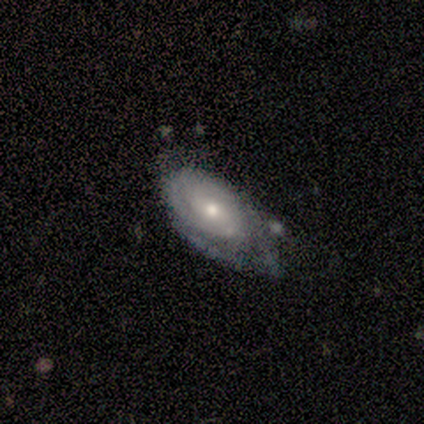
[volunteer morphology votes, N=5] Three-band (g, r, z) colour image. It shows a smooth galaxy with no disk features (60%) that is in between round and cigar-shaped (67%). Merging: minor disturbance (60%).